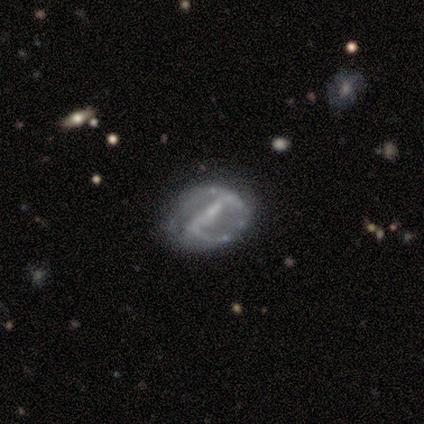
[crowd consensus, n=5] Smooth or featured? featured or disk (80%)
Edge-on disk? no (100%)
Bar? strong (75%)
Spiral arms? yes (100%)
Spiral winding? loose (50%)
Spiral arm count? can't tell (50%)
Bulge size? small (50%, tied with none)
Merging? none (40%, tied with minor disturbance)